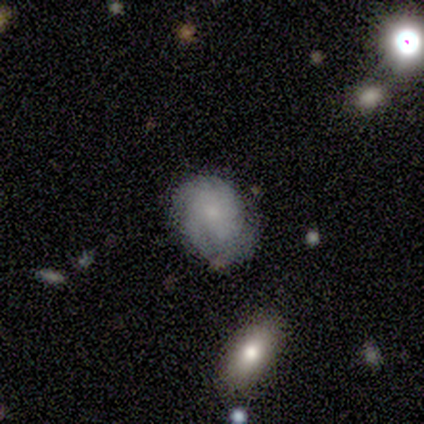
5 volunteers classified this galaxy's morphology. Smooth or featured?
  - smooth: 40% * (tied)
  - featured or disk: 40% * (tied)
  - star or artifact: 20%
How rounded?
  - round: 100% *
  - in between: 0%
  - cigar-shaped: 0%
Merging?
  - none: 50% * (tied)
  - minor disturbance: 50% * (tied)
  - major disturbance: 0%
  - merger: 0%